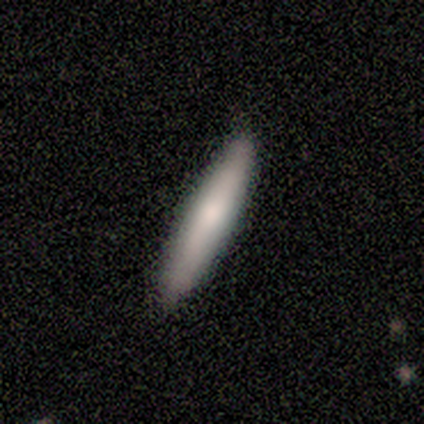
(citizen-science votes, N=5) smooth 100%, featured or disk 0%, star or artifact 0%. Down the decision tree: how rounded — cigar-shaped (100%); merging — none (80%).